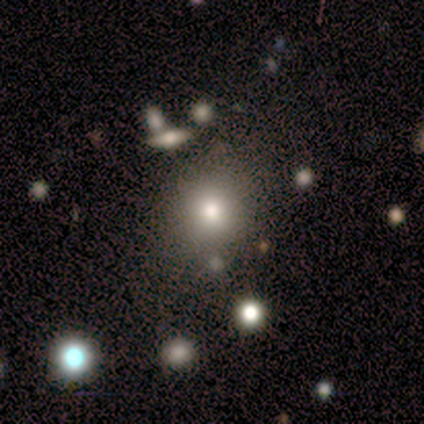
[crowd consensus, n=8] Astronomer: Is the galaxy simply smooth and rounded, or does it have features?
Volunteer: smooth — 88%.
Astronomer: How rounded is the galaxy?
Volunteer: round — 86%.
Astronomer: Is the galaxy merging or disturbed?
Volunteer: none — 100%.